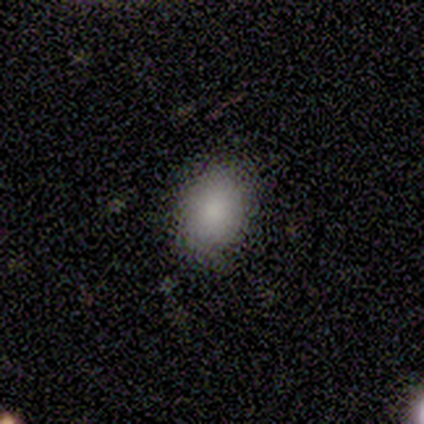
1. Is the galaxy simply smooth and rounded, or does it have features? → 100% smooth, 0% featured or disk, 0% star or artifact.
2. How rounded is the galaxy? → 73% in between, 27% round, 0% cigar-shaped.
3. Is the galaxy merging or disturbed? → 82% none, 9% minor disturbance, 9% major disturbance, 0% merger.